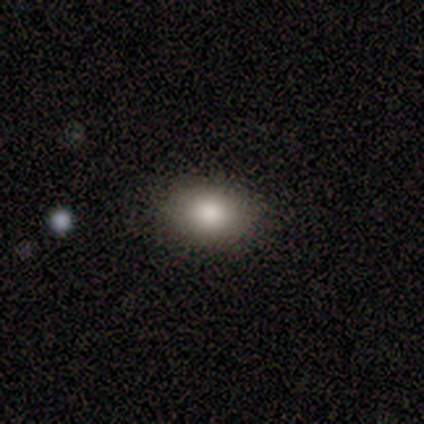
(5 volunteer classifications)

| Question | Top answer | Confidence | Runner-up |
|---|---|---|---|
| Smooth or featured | smooth | 80% | featured or disk (20%) |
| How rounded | in between | 100% | — |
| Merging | none | 100% | — |